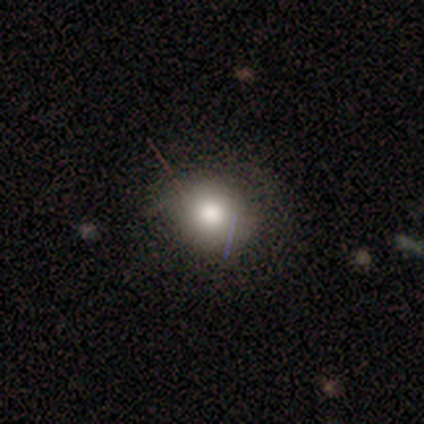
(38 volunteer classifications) Smooth or featured? 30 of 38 (79%) said smooth. How rounded? 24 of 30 (80%) said round. Merging? 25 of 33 (76%) said none.